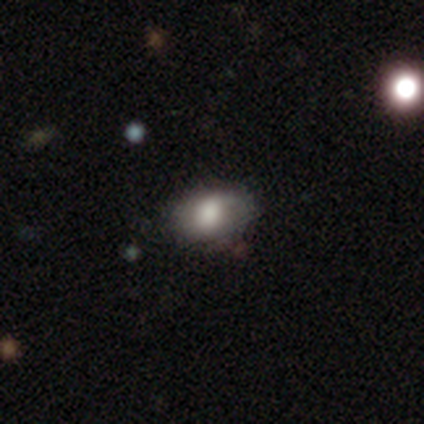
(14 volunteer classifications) Morphology: type=smooth (64%); roundness=in between (89%); merging=none (75%).